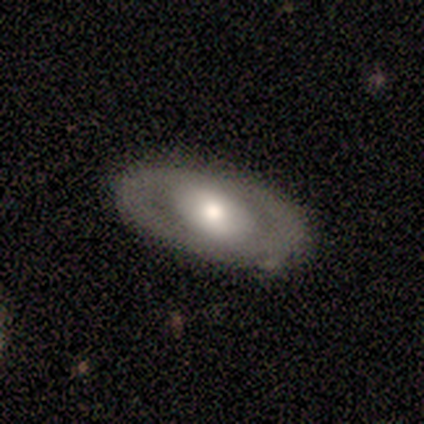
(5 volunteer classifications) Morphology: type=featured or disk (80%); edge-on=no (75%); bar=no (100%); spiral arms=no (100%); bulge=moderate (100%); merging=none (80%).